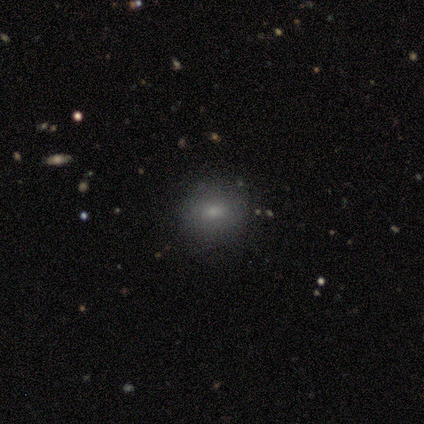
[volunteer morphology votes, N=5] smooth-or-featured: smooth: 60% | featured or disk: 20% | star or artifact: 20%
  how-rounded: round: 67% | in between: 33% | cigar-shaped: 0%
  merging: none: 100% | minor disturbance: 0% | major disturbance: 0% | merger: 0%